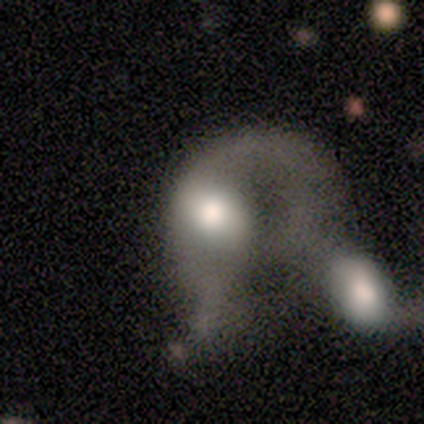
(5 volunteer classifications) Smooth or featured? 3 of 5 (60%) said featured or disk. Edge-on disk? 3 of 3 (100%) said no. Bar? 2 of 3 (67%) said no. Spiral arms? 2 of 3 (67%) said yes. Spiral winding? 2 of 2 (100%) said medium. Spiral arm count? 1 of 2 (50%, tied with 2) said 1. Bulge size? 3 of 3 (100%) said large. Merging? 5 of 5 (100%) said merger.